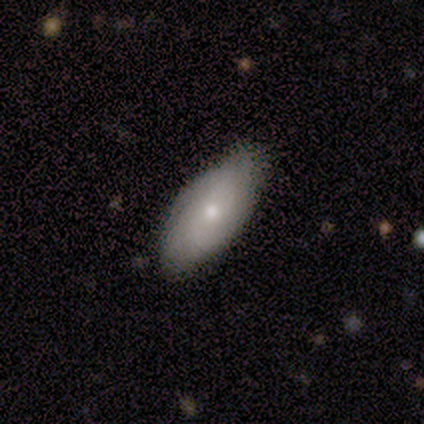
A featured or disk galaxy (60%) with no bar (100%), tight (33%, tied with medium and loose) spiral arms (100%) and a small central bulge (100%). Merging: minor disturbance (60%).